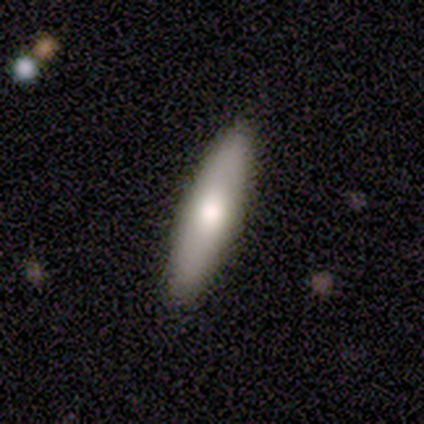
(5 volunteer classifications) Smooth or featured?
  - smooth: 80% *
  - featured or disk: 20%
  - star or artifact: 0%
How rounded?
  - cigar-shaped: 75% *
  - in between: 25%
  - round: 0%
Merging?
  - none: 80% *
  - merger: 20%
  - minor disturbance: 0%
  - major disturbance: 0%